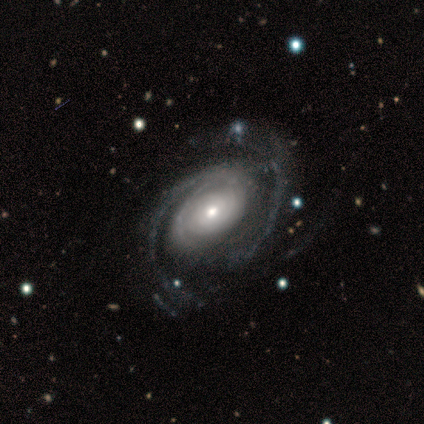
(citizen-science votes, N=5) Morphology: type=featured or disk (100%); edge-on=no (100%); bar=no (80%); spiral arms=yes (80%); winding=medium (75%); arm count=can't tell (50%); bulge=moderate (60%); merging=none (80%).